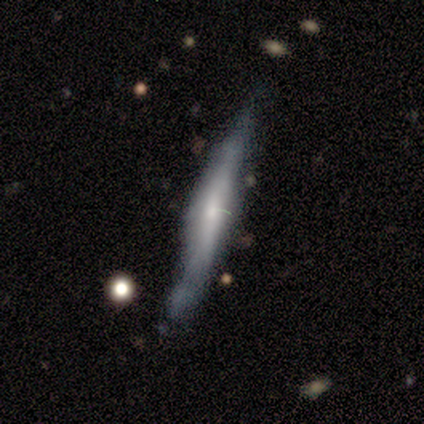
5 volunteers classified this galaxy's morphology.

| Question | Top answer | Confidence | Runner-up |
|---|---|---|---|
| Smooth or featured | featured or disk | 80% | smooth (20%) |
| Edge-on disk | yes | 100% | — |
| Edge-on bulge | rounded | 50% | boxy (25%) |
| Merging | none | 40% | tied: minor disturbance (40%) |